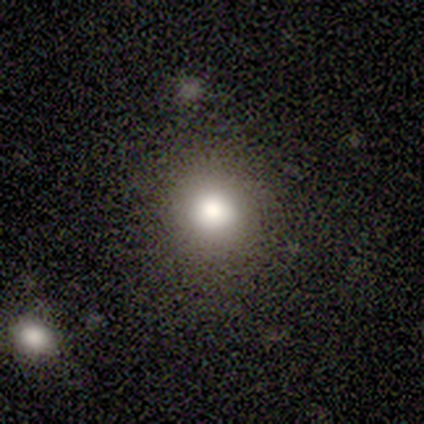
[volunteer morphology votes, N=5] Smooth or featured? 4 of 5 (80%) said smooth. How rounded? 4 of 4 (100%) said round. Merging? 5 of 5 (100%) said none.